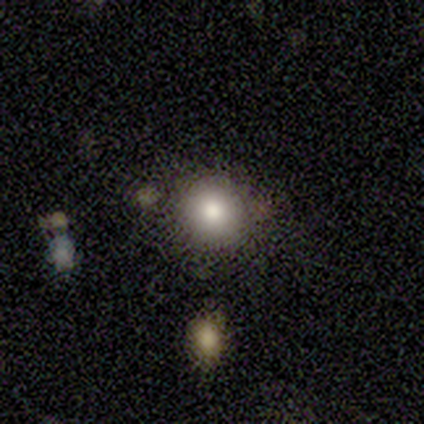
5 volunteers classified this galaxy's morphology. smooth-or-featured: smooth: 60% | featured or disk: 20% | star or artifact: 20%
  how-rounded: round: 67% | in between: 33% | cigar-shaped: 0%
  merging: none: 50% | minor disturbance: 25% | merger: 25% | major disturbance: 0%